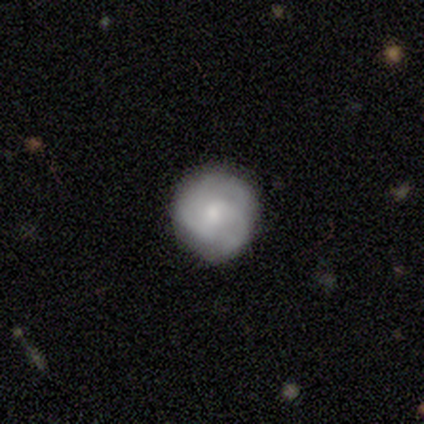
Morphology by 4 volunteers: Smooth or featured? 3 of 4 (75%) said smooth. How rounded? 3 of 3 (100%) said round. Merging? 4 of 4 (100%) said none.